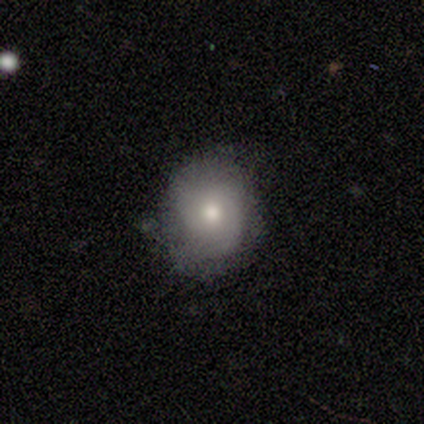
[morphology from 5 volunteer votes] Q: Smooth or featured?
A: featured or disk (60%); runner-up: smooth (40%)
Q: Edge-on disk?
A: no (100%)
Q: Bar?
A: no (100%)
Q: Spiral arms?
A: yes (100%)
Q: Spiral winding?
A: tight (67%); runner-up: medium (33%)
Q: Spiral arm count?
A: can't tell (67%); runner-up: 1 (33%)
Q: Bulge size?
A: moderate (100%)
Q: Merging?
A: none (80%); runner-up: minor disturbance (20%)